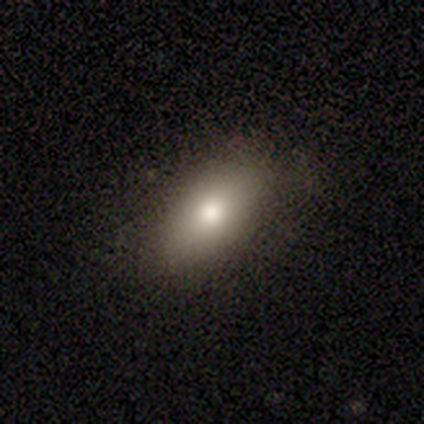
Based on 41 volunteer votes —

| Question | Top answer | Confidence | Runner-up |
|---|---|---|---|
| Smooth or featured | smooth | 83% | featured or disk (15%) |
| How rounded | in between | 94% | cigar-shaped (6%) |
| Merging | none | 80% | minor disturbance (18%) |